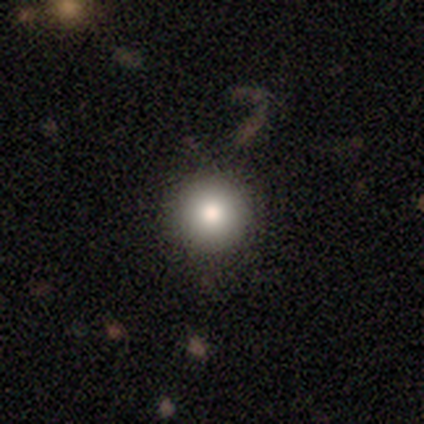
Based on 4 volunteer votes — This appears to be a smooth galaxy with no disk features (75%) that is round (100%). Merging: none (100%).